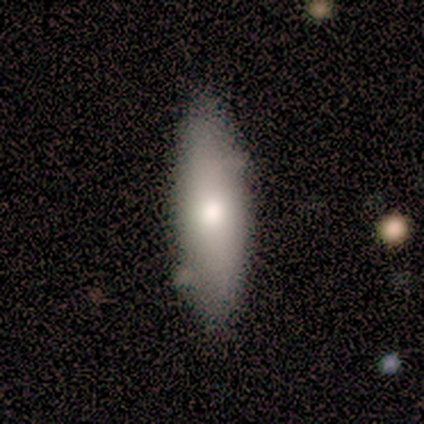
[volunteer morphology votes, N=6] This is clearly a smooth galaxy (83%). How rounded: likely in between (60%). Merging: clearly none (83%).